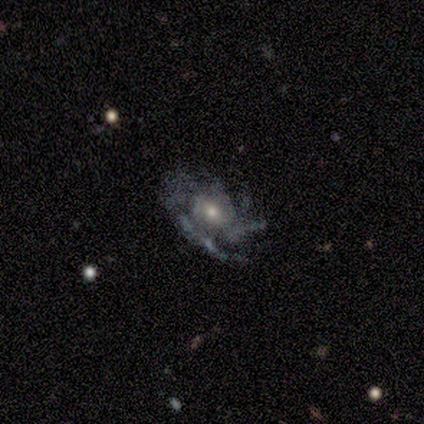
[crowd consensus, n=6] featured or disk 100%, smooth 0%, star or artifact 0%. Down the decision tree: edge-on disk — no (100%); bar — no (67%); spiral arms — yes (83%); spiral arm count — 2 (40%, tied with more than 4); spiral winding — medium (60%); bulge size — small (67%); merging — none (67%).